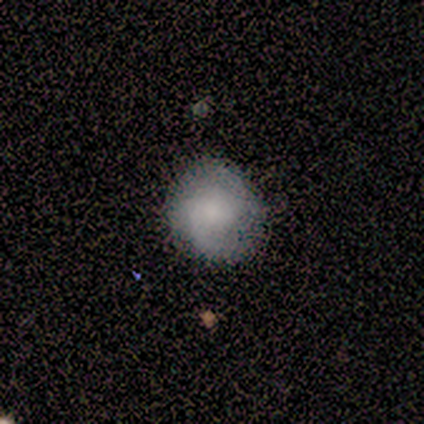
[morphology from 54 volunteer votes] Smooth or featured: smooth — 54% (featured or disk — 37%)
How rounded: round — 76% (in between — 24%)
Merging: none — 84% (minor disturbance — 14%)